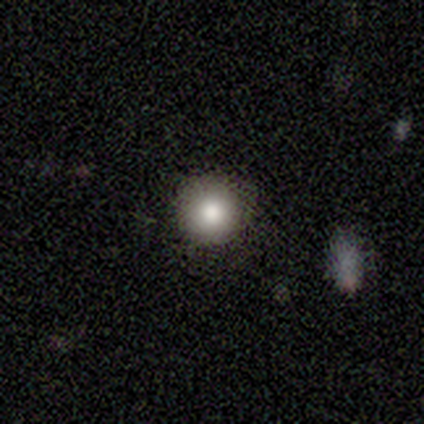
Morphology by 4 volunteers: Volunteers were most divided on "merging": none: 50%, minor disturbance: 25%, major disturbance: 25%, merger: 0%. More confident: smooth or featured — smooth (100%); how rounded — round (100%).